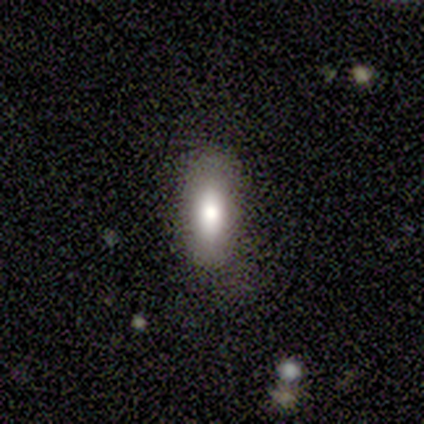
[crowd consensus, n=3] A smooth galaxy with no disk features (100%) that is in between round and cigar-shaped (100%). Merging: none (67%).